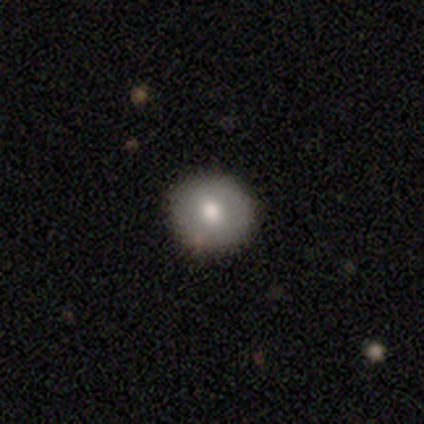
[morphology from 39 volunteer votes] A smooth galaxy with no disk features (72%) that is round (89%).

Vote fractions:
- Smooth or featured? smooth: 72% / featured or disk: 21% / star or artifact: 8%
- How rounded? round: 89% / in between: 11% / cigar-shaped: 0%
- Merging? none: 86% / minor disturbance: 8% / major disturbance: 3% / merger: 3%